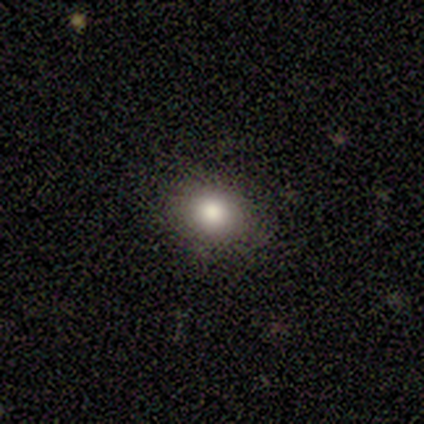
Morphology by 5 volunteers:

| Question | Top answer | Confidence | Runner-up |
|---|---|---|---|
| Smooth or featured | smooth | 80% | featured or disk (20%) |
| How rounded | round | 75% | in between (25%) |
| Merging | none | 100% | — |